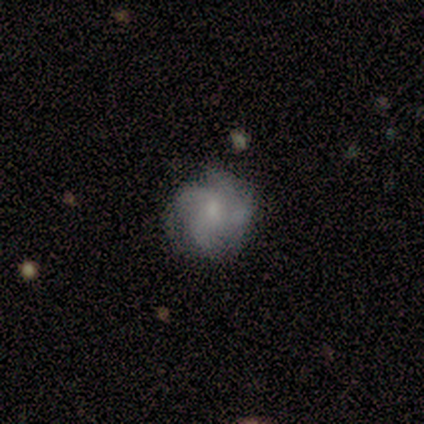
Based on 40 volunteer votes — Smooth or featured?
  - featured or disk: 68% *
  - smooth: 25%
  - star or artifact: 8%
Edge-on disk?
  - no: 100% *
  - yes: 0%
Bar?
  - no: 63% *
  - weak: 37%
  - strong: 0%
Spiral arms?
  - yes: 89% *
  - no: 11%
Spiral winding?
  - medium: 38% *
  - loose: 33%
  - tight: 29%
Spiral arm count?
  - 4: 58% *
  - 3: 33%
  - can't tell: 8%
  - 1: 0%
  - 2: 0%
  - more than 4: 0%
Bulge size?
  - small: 59% *
  - moderate: 30%
  - none: 11%
  - dominant: 0%
  - large: 0%
Merging?
  - none: 81% *
  - minor disturbance: 8%
  - major disturbance: 8%
  - merger: 3%